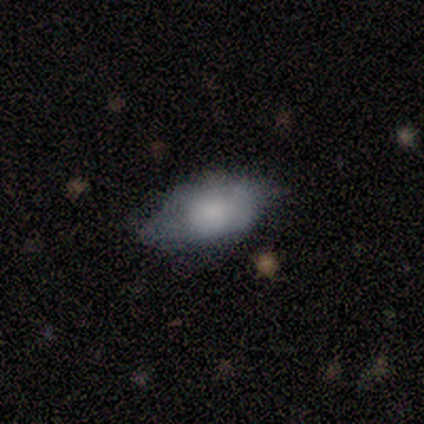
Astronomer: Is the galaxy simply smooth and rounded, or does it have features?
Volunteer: featured or disk — 60% (runner-up: smooth, 40%).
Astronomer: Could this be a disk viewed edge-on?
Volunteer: no — 100%.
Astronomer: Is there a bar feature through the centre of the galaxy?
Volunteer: no — 67%.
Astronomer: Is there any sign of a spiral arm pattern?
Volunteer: no — 100%.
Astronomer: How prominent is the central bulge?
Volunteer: moderate — 67%.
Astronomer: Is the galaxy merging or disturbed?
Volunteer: minor disturbance — 60% (runner-up: none, 40%).